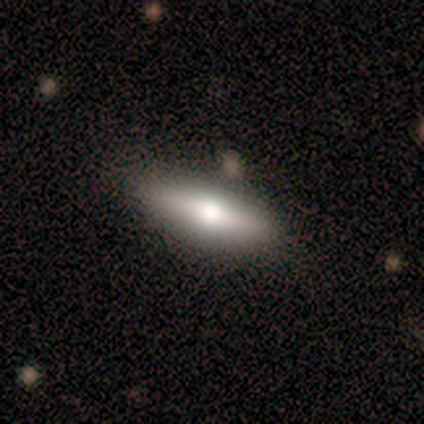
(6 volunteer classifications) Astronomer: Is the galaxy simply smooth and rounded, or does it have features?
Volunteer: featured or disk — 67%.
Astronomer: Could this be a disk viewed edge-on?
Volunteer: yes — 50%, tied with no at 50%.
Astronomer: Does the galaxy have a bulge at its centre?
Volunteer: rounded — 100%.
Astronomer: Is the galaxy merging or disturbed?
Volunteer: none — 50%.